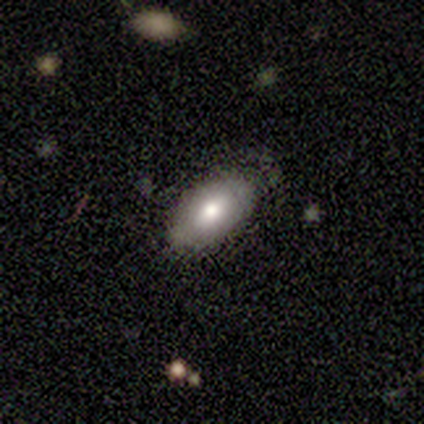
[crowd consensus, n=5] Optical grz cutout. It shows a smooth galaxy with no disk features (60%) that is in between round and cigar-shaped (100%). Merging: none (67%).